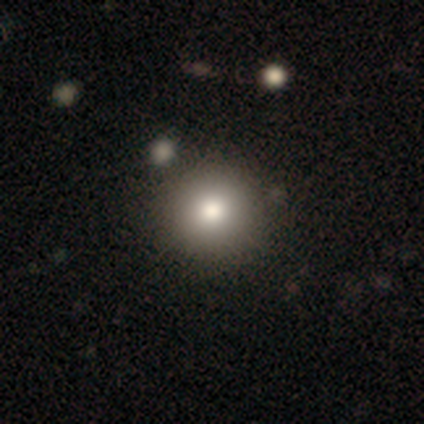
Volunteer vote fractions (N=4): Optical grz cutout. It shows a smooth galaxy with no disk features (100%) that is round (100%). Merging: none (100%).